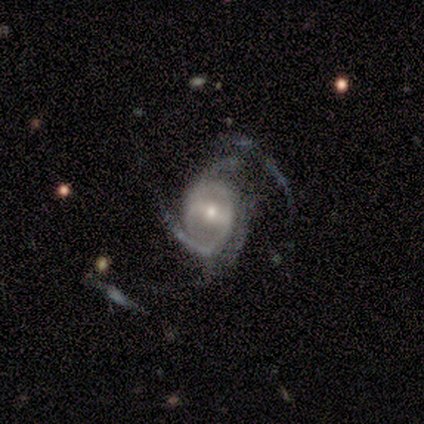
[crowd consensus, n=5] Smooth or featured? featured or disk (80%)
Edge-on disk? no (100%)
Bar? no (75%)
Spiral arms? yes (100%)
Spiral winding? medium (50%, tied with loose)
Spiral arm count? 2 (75%)
Bulge size? moderate (75%)
Merging? major disturbance (60%)